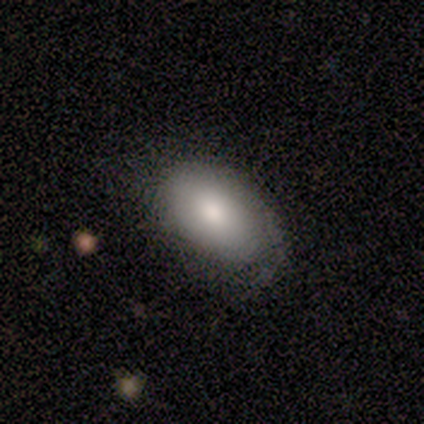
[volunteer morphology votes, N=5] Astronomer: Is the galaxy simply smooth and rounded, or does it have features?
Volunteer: smooth — 80%.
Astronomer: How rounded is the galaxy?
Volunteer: in between — 100%.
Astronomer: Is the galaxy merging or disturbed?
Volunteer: none — 80%.